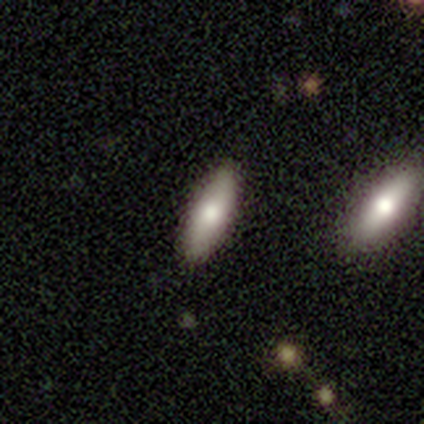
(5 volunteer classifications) Smooth or featured? 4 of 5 (80%) said smooth. How rounded? 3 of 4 (75%) said in between. Merging? 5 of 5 (100%) said none.